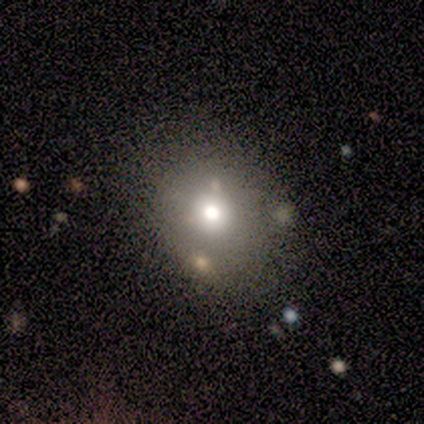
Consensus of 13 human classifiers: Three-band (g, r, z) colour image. It shows a smooth galaxy with no disk features (77%) that is round (60%). Merging: none (55%).